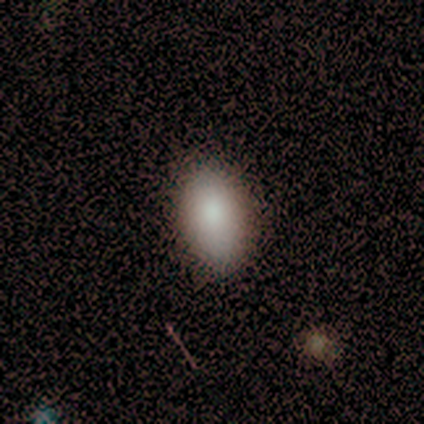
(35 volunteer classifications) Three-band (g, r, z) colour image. It shows a smooth galaxy with no disk features (83%) that is in between round and cigar-shaped (90%). Merging: none (78%).